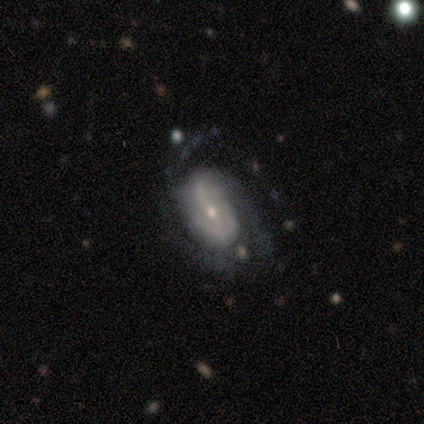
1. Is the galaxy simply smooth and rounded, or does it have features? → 100% featured or disk, 0% smooth, 0% star or artifact.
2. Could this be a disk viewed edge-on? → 100% no, 0% yes.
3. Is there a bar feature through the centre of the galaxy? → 40% strong (tied), 40% weak (tied), 20% no.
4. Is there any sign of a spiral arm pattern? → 100% yes, 0% no.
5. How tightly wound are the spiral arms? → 60% medium, 20% tight, 20% loose.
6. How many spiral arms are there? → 40% 2, 20% 1, 20% 4, 20% can't tell, 0% 3, 0% more than 4.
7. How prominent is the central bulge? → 80% small, 20% moderate, 0% dominant, 0% large, 0% none.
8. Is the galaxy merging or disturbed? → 40% none (tied), 40% minor disturbance (tied), 20% major disturbance, 0% merger.